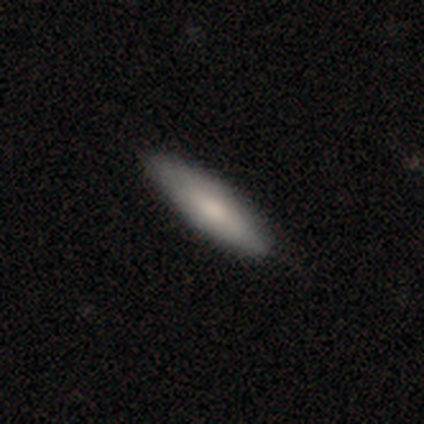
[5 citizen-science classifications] smooth_or_featured: featured or disk (p=0.60) [alt: smooth p=0.40]
disk_edge_on: no (p=0.67) [alt: yes p=0.33]
bar: no (p=1.00)
has_spiral_arms: no (p=1.00)
bulge_size: moderate (p=0.50) [tied with: small p=0.50]
merging: none (p=0.60) [alt: minor disturbance p=0.40]